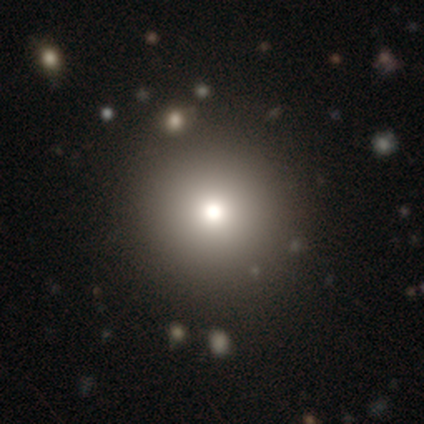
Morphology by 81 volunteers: A smooth galaxy with no disk features (79%) that is round (100%). Merging: none (45%).